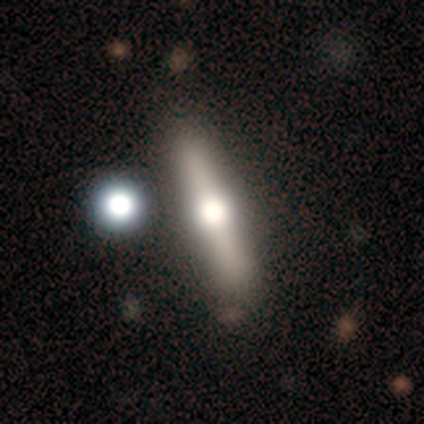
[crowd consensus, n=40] smooth-or-featured: featured or disk: 68% | smooth: 28% | star or artifact: 5%
  disk-edge-on: yes: 100% | no: 0%
    edge-on-bulge: rounded: 96% | boxy: 4% | none: 0%
  merging: none: 84% | minor disturbance: 5% | major disturbance: 5% | merger: 5%